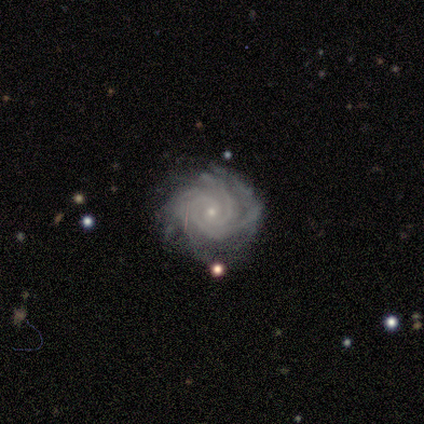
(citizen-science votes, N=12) A featured or disk galaxy (100%) with no bar (91%), 4 (45%) tight (91%) spiral arms (100%) and a small central bulge (100%). Merging: none (75%).